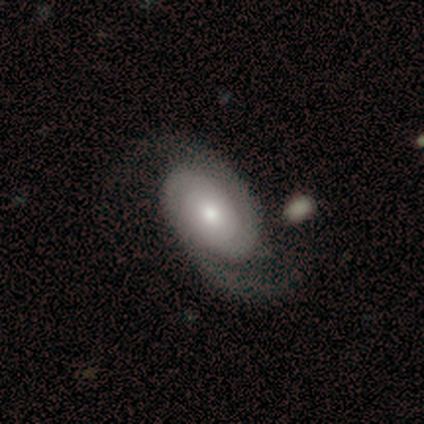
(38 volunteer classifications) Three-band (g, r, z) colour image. It shows a featured or disk galaxy (76%) with no bar (86%), 2 (93%) tight (41%) spiral arms (96%) and a moderate central bulge (68%). Merging: none (58%).